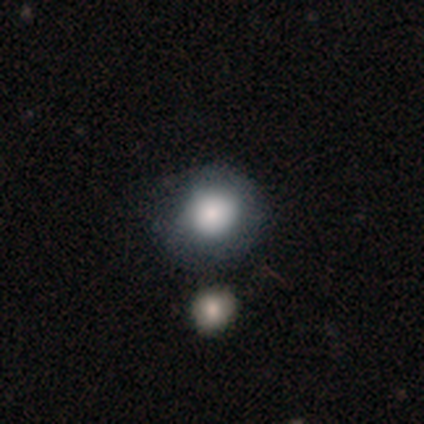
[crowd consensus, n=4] smooth_or_featured: smooth (p=1.00)
how_rounded: round (p=0.50) [tied with: in between p=0.50]
merging: none (p=0.50) [tied with: minor disturbance p=0.50]